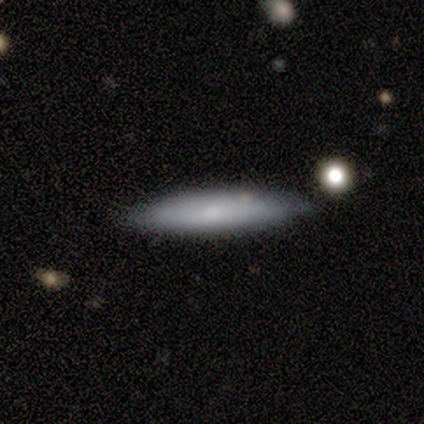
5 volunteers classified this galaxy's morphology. Q: Smooth or featured?
A: smooth (80%); runner-up: featured or disk (20%)
Q: How rounded?
A: cigar-shaped (100%)
Q: Merging?
A: none (80%); runner-up: minor disturbance (20%)